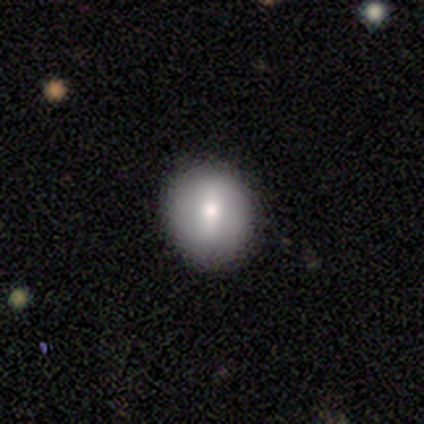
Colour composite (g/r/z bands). It shows a smooth galaxy with no disk features (56%) that is round (91%). Merging: none (85%).